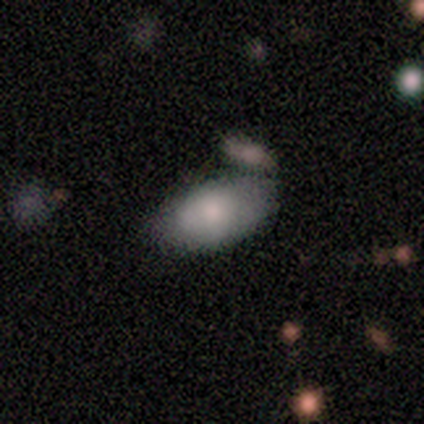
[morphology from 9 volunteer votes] Smooth or featured: smooth — 89% (featured or disk — 11%)
How rounded: in between — 100%
Merging: none — 56% (minor disturbance — 33%)